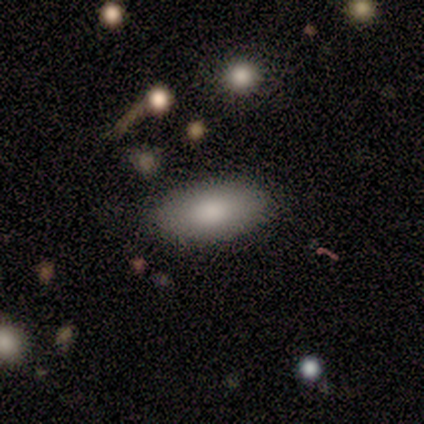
Smooth or featured?
  - smooth: 83% *
  - star or artifact: 17%
  - featured or disk: 0%
How rounded?
  - in between: 100% *
  - round: 0%
  - cigar-shaped: 0%
Merging?
  - none: 100% *
  - minor disturbance: 0%
  - major disturbance: 0%
  - merger: 0%